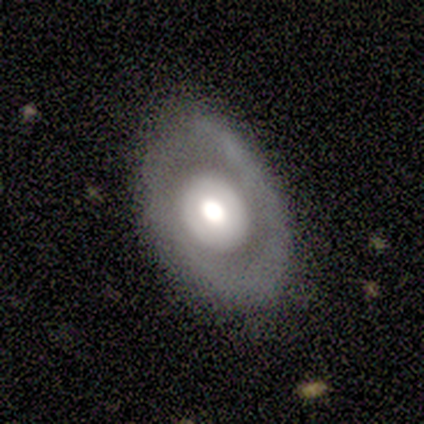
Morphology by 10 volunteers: Smooth or featured: featured or disk — 70% (smooth — 20%)
Edge-on disk: no — 100%
Bar: no — 100%
Spiral arms: no — 71% (yes — 29%)
Bulge size: large — 57% (moderate — 43%)
Merging: none — 78% (minor disturbance — 22%)